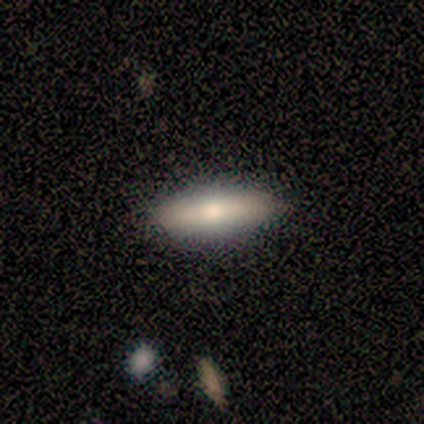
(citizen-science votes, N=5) This appears to be a smooth galaxy with no disk features (80%) that is cigar-shaped (75%). Merging: none (80%).